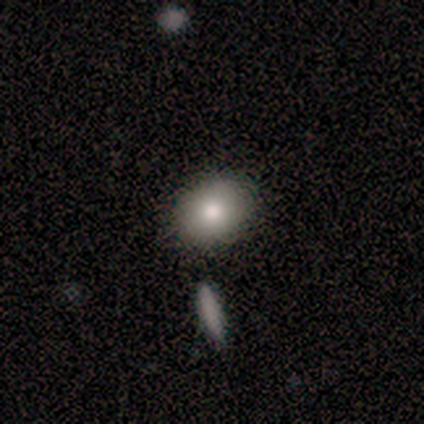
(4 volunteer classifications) This appears to be a smooth galaxy with no disk features (75%) that is in between round and cigar-shaped (67%). Merging: none (100%).